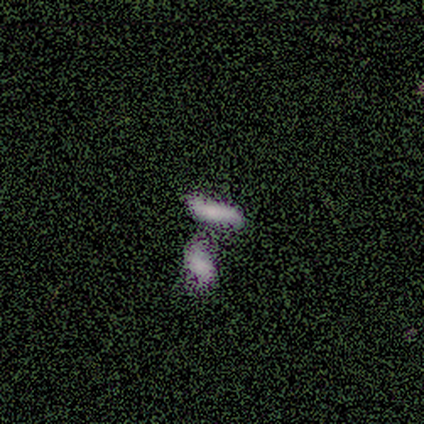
A smooth galaxy with no disk features (46%) that is cigar-shaped (67%).

Vote fractions:
- Smooth or featured? smooth: 46% / featured or disk: 31% / star or artifact: 23%
- How rounded? cigar-shaped: 67% / in between: 33% / round: 0%
- Merging? merger: 60% / none: 40% / minor disturbance: 0% / major disturbance: 0%